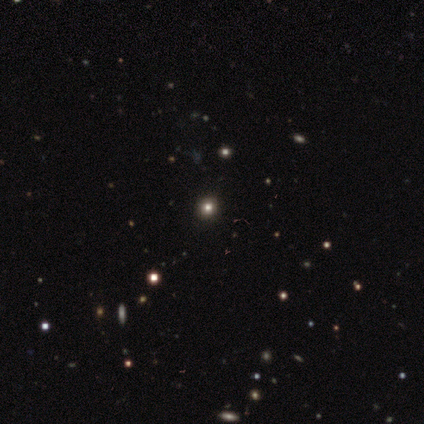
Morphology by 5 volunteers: Smooth or featured? 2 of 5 (40%, tied with star or artifact) said smooth. How rounded? 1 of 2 (50%, tied with in between) said round. Merging? 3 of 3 (100%) said none.